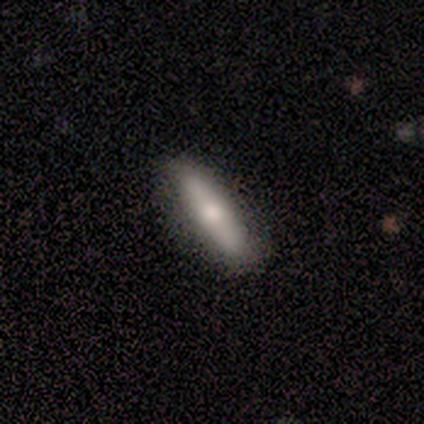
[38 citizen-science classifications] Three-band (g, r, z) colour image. It shows a smooth galaxy with no disk features (68%) that is cigar-shaped (81%). Merging: none (92%).